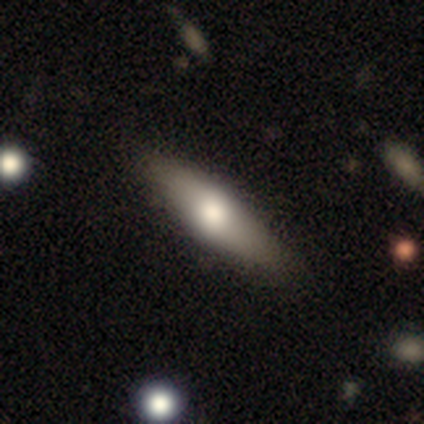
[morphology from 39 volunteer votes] A smooth galaxy with no disk features (64%) that is cigar-shaped (60%). Merging: none (87%).